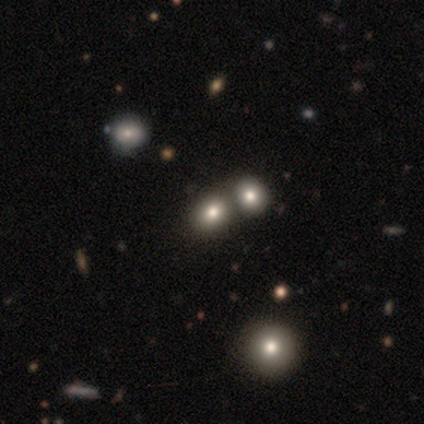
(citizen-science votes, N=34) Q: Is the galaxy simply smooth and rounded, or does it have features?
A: smooth — 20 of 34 (59%).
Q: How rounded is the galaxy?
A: round — 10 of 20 (50%, tied with in between).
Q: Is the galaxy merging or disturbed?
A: merger — 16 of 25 (64%).